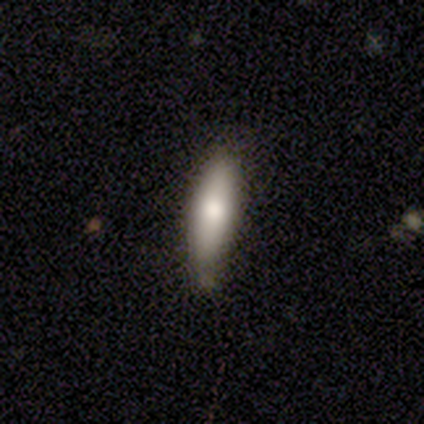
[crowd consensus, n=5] Smooth or featured: smooth — 100%
How rounded: cigar-shaped — 80% (in between — 20%)
Merging: none — 100%